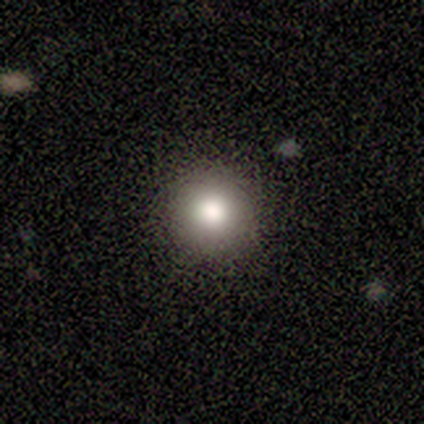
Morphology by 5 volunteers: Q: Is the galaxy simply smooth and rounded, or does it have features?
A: smooth — 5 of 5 (100%).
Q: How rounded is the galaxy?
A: round — 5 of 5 (100%).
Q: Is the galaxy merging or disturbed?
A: none — 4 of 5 (80%).